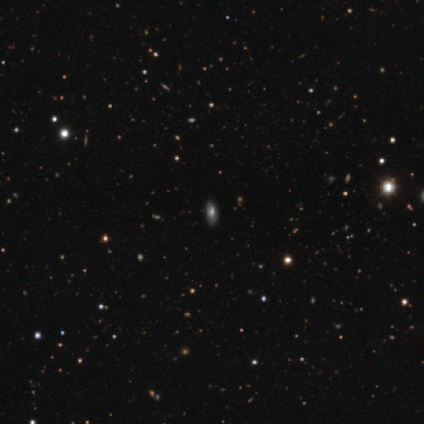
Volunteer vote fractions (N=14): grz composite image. It shows a smooth galaxy with no disk features (86%) that is in between round and cigar-shaped (75%). Merging: none (92%).